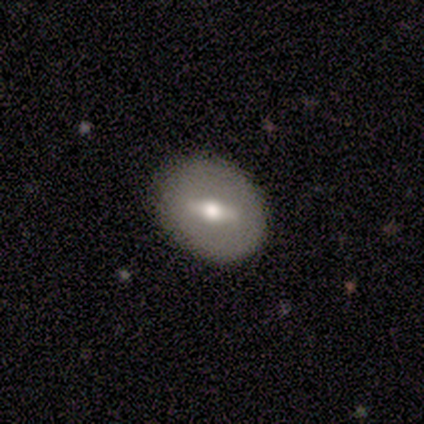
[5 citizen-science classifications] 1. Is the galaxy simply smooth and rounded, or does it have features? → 40% smooth (tied), 40% featured or disk (tied), 20% star or artifact.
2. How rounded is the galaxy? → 100% in between, 0% round, 0% cigar-shaped.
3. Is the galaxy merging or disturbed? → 50% none (tied), 50% minor disturbance (tied), 0% major disturbance, 0% merger.